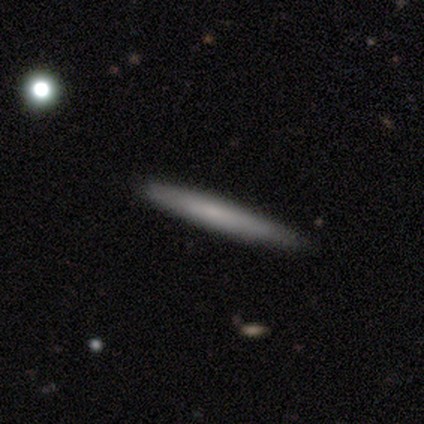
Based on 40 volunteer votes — smooth 68%, featured or disk 22%, star or artifact 10%. Down the decision tree: how rounded — cigar-shaped (100%); merging — none (89%).